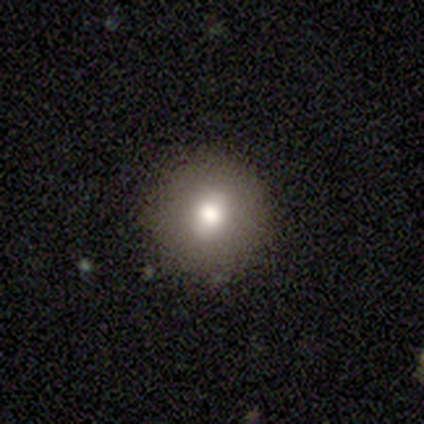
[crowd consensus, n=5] A smooth galaxy with no disk features (80%) that is round (100%). Merging: none (100%).